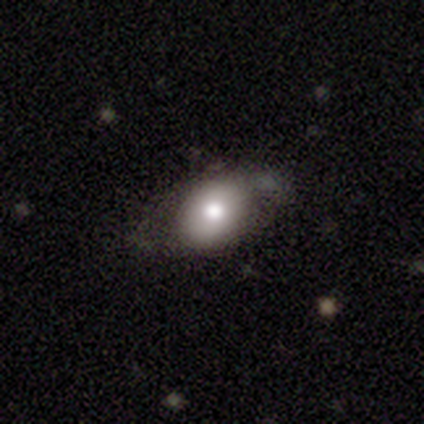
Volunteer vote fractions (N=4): Overall: smooth (50%; featured or disk 25%). How rounded: in between (100%). Merging: none (100%).